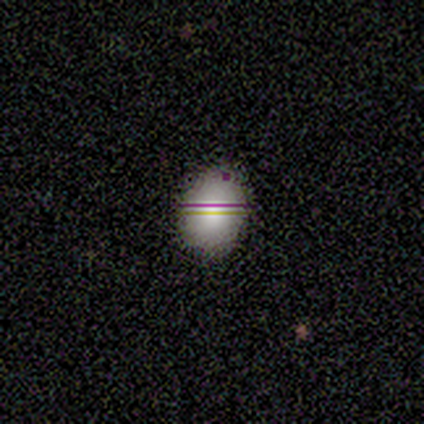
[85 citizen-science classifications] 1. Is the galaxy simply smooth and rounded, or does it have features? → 66% smooth, 22% star or artifact, 12% featured or disk.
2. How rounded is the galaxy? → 66% in between, 34% round, 0% cigar-shaped.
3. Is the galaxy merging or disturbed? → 82% none, 14% minor disturbance, 3% merger, 2% major disturbance.